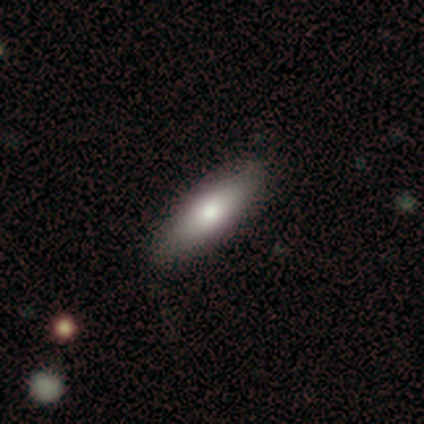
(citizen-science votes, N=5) Q: Smooth or featured?
A: featured or disk (60%); runner-up: smooth (40%)
Q: Edge-on disk?
A: no (67%); runner-up: yes (33%)
Q: Bar?
A: no (100%)
Q: Spiral arms?
A: no (100%)
Q: Bulge size?
A: large (50%); tied with: moderate (50%)
Q: Merging?
A: none (80%); runner-up: minor disturbance (20%)